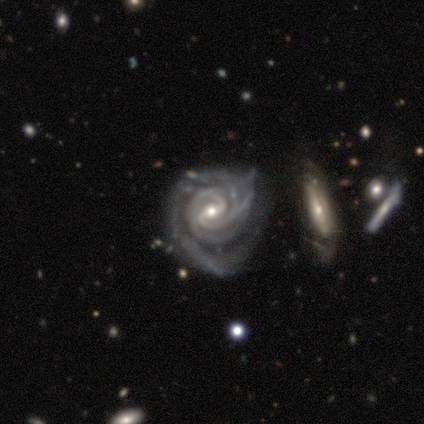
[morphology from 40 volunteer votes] Overall: featured or disk (98%). Edge-on disk: no (95%). Bar: weak (59%; strong 27%). Spiral arms: yes (100%). Spiral arm count: 2 (51%; 3 32%). Spiral winding: tight (76%). Bulge size: moderate (57%; small 35%). Merging: minor disturbance (30%; none 18%).